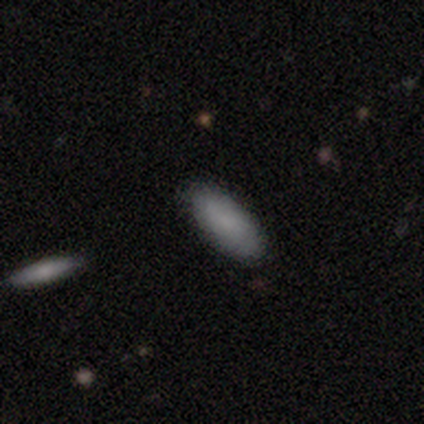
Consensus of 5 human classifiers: Overall: smooth (100%). How rounded: in between (80%). Merging: none (80%).